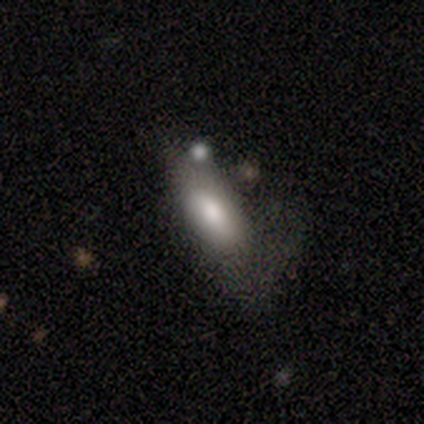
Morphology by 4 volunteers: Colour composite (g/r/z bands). It shows a smooth galaxy with no disk features (75%) that is in between round and cigar-shaped (67%). Merging: none (50%, tied with minor disturbance).